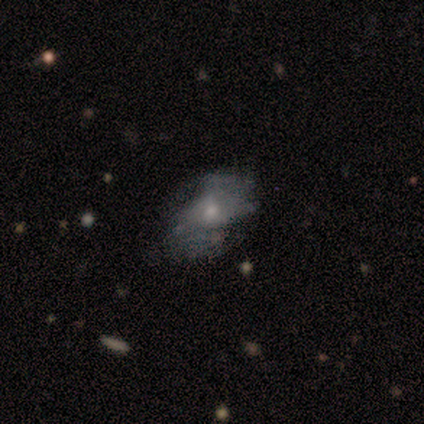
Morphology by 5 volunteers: featured or disk 60%, smooth 40%, star or artifact 0%. Down the decision tree: edge-on disk — no (100%); bar — no (67%); spiral arms — no (100%); bulge size — small (67%); merging — minor disturbance (40%, tied with major disturbance).